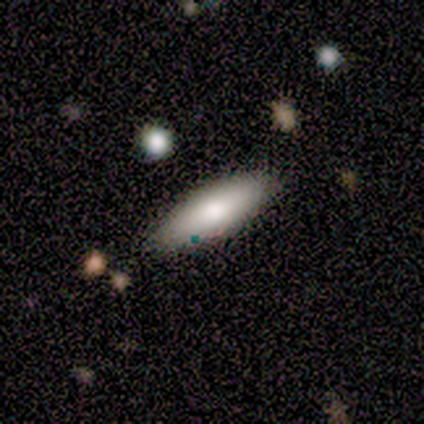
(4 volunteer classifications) Smooth or featured? 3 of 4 (75%) said smooth. How rounded? 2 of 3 (67%) said in between. Merging? 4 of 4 (100%) said none.